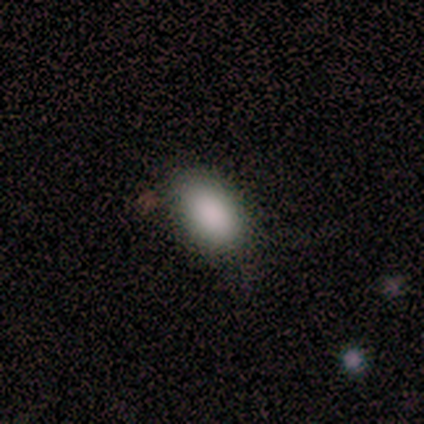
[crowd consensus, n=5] A smooth galaxy with no disk features (100%) that is in between round and cigar-shaped (100%).

Vote fractions:
- Smooth or featured? smooth: 100% / featured or disk: 0% / star or artifact: 0%
- How rounded? in between: 100% / round: 0% / cigar-shaped: 0%
- Merging? none: 80% / minor disturbance: 20% / major disturbance: 0% / merger: 0%